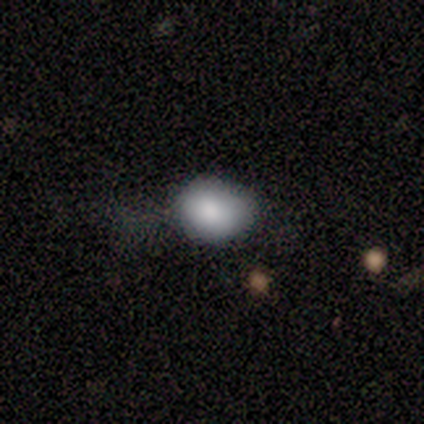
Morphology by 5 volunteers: type=smooth (100%); roundness=in between (60%); merging=none (60%).